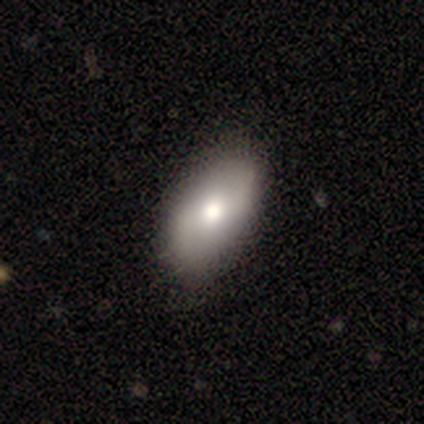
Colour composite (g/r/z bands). It shows a smooth galaxy with no disk features (80%) that is in between round and cigar-shaped (100%). Merging: none (80%).